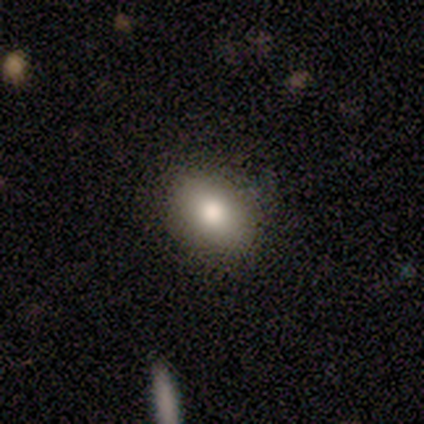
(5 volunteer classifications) Smooth or featured?
  - smooth: 100% *
  - featured or disk: 0%
  - star or artifact: 0%
How rounded?
  - in between: 60% *
  - round: 20%
  - cigar-shaped: 20%
Merging?
  - none: 80% *
  - minor disturbance: 20%
  - major disturbance: 0%
  - merger: 0%